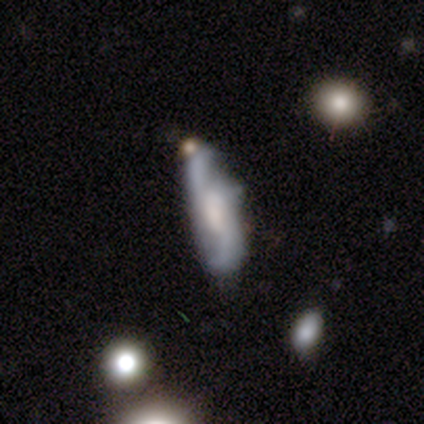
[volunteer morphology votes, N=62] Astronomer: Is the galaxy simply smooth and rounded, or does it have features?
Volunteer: featured or disk — 71%.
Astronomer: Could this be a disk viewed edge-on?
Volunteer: no — 82%.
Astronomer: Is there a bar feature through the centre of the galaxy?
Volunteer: weak — 42%, tied with no at 42%.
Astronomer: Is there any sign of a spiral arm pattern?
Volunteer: yes — 92%.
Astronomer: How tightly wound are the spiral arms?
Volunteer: loose — 76%.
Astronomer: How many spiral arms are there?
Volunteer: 2 — 82%.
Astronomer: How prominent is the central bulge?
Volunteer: moderate — 31% (runner-up: large, 25%).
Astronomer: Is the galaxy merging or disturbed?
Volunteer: none — 43% (runner-up: minor disturbance, 40%).